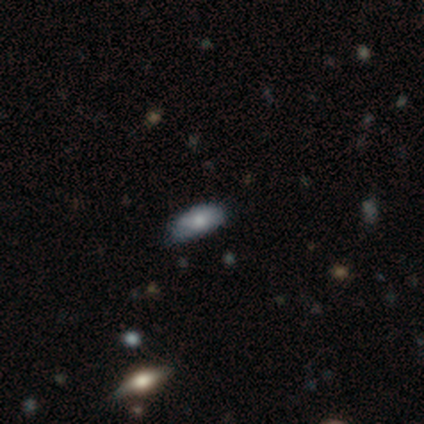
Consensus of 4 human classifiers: smooth-or-featured: smooth: 50% (tied) | featured or disk: 50% (tied) | star or artifact: 0%
  how-rounded: in between: 100% | round: 0% | cigar-shaped: 0%
  merging: none: 100% | minor disturbance: 0% | major disturbance: 0% | merger: 0%